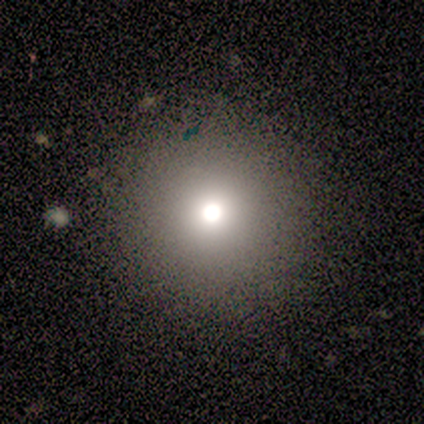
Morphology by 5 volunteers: Smooth or featured: smooth — 60% (star or artifact — 40%)
How rounded: round — 100%
Merging: none — 67% (minor disturbance — 33%)